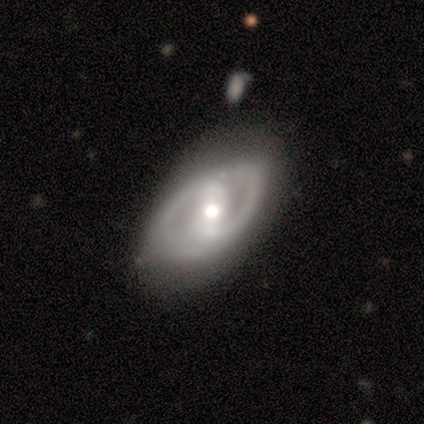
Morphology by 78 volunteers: Smooth or featured? 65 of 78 (83%) said featured or disk. Edge-on disk? 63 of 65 (97%) said no. Bar? 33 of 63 (52%) said strong. Spiral arms? 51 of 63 (81%) said yes. Spiral winding? 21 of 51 (41%) said medium. Spiral arm count? 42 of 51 (82%) said 2. Bulge size? 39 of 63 (62%) said moderate. Merging? 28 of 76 (37%) said none.